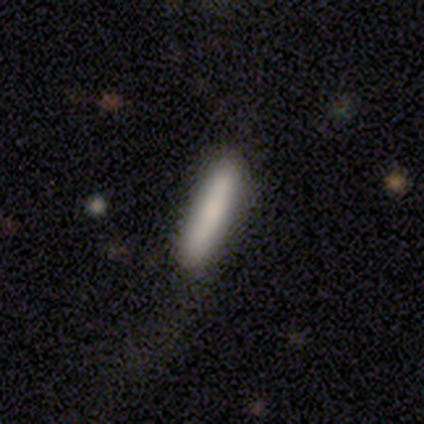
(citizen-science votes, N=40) smooth 80%, featured or disk 18%, star or artifact 2%. Down the decision tree: how rounded — cigar-shaped (97%); merging — none (69%).